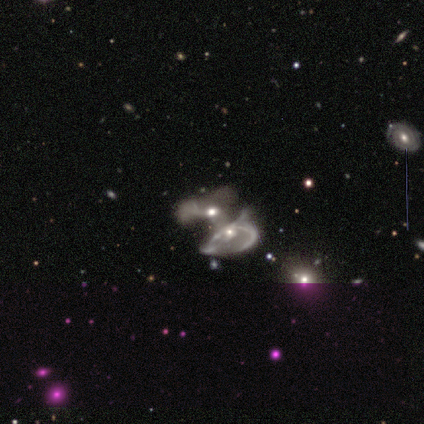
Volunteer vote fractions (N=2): Q: Smooth or featured?
A: smooth (50%); tied with: featured or disk (50%)
Q: How rounded?
A: in between (100%)
Q: Merging?
A: merger (100%)